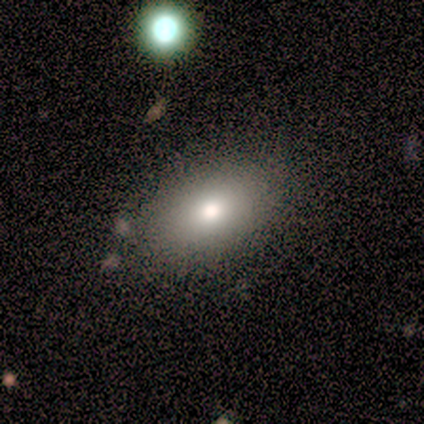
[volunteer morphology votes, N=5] Q: Smooth or featured?
A: smooth (100%)
Q: How rounded?
A: in between (60%); runner-up: round (40%)
Q: Merging?
A: none (60%); runner-up: minor disturbance (20%)